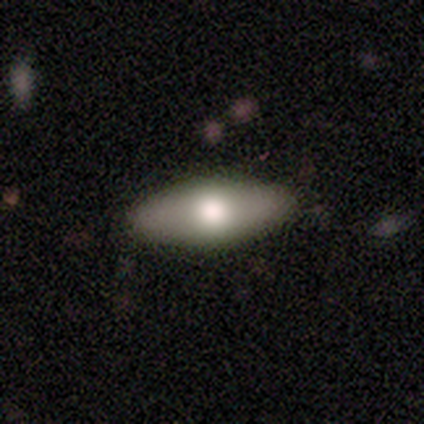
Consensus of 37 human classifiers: Overall: smooth (73%). How rounded: in between (81%). Merging: none (89%).